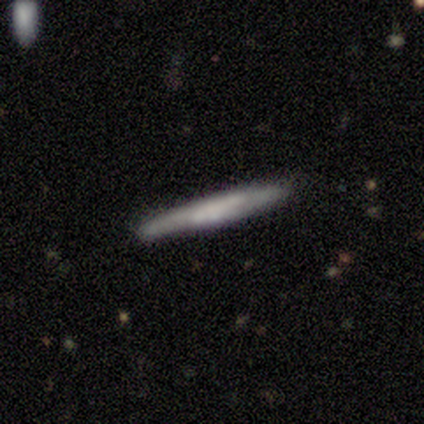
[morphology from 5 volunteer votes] This is likely a featured or disk galaxy (60%). It is clearly viewed edge-on (100%). Edge-on bulge: clearly none (100%). Merging: clearly none (80%).